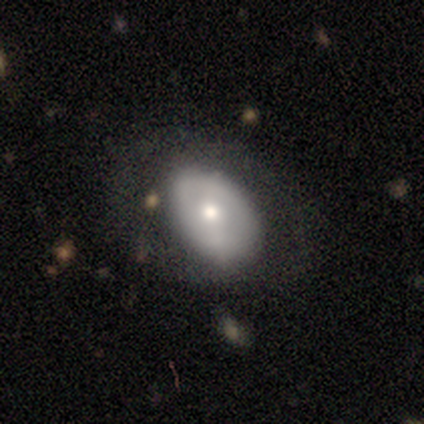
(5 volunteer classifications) Smooth or featured? smooth (60%)
How rounded? in between (100%)
Merging? none (50%, tied with minor disturbance)